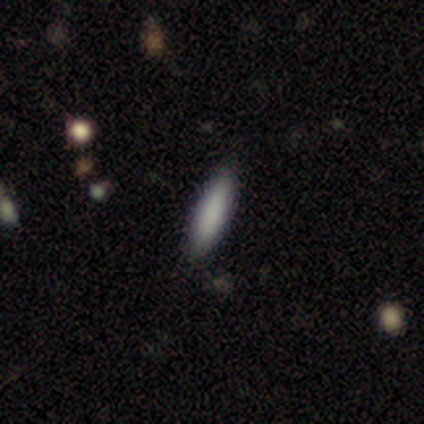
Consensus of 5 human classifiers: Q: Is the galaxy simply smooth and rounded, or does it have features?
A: smooth — 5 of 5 (100%).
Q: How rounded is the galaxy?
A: cigar-shaped — 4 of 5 (80%).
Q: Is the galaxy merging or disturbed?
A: none — 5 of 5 (100%).